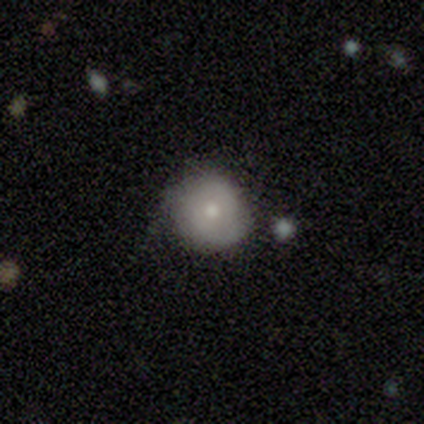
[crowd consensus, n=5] Volunteers were most divided on "how rounded": round: 80%, in between: 20%, cigar-shaped: 0%. More confident: smooth or featured — smooth (100%); merging — none (80%).